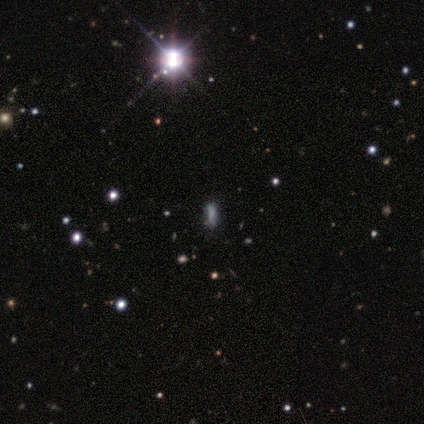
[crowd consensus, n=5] This is clearly a star or artifact rather than a galaxy (100%).